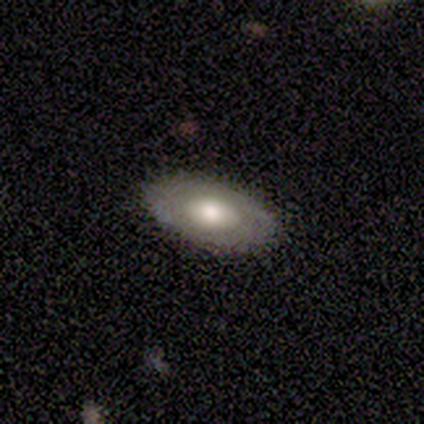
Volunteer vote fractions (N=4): A featured or disk galaxy (75%) with no bar (67%), no spiral arms (67%) and a moderate central bulge (100%). Merging: none (100%).